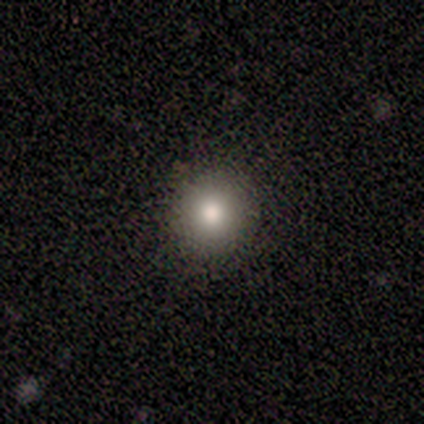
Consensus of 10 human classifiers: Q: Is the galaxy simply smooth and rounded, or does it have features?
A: smooth — 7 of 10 (70%).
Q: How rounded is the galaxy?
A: round — 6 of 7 (86%).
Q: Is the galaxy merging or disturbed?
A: none — 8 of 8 (100%).